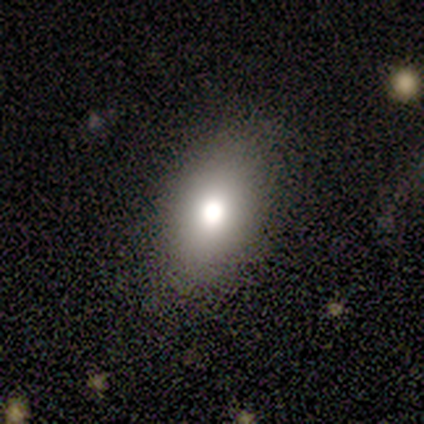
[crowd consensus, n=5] smooth 100%, featured or disk 0%, star or artifact 0%. Down the decision tree: how rounded — in between (80%); merging — none (80%).